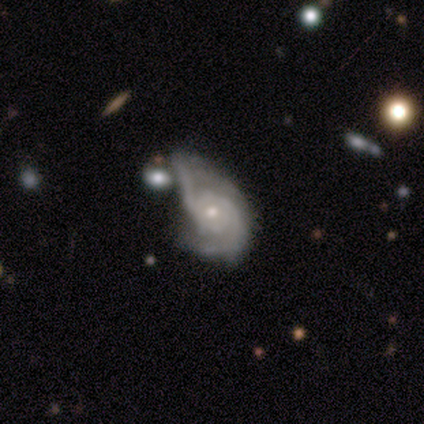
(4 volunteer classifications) A featured or disk galaxy (100%) with no bar (100%), 2 (50%, tied with can't tell) medium (50%) spiral arms (100%) and a moderate central bulge (75%). Merging: major disturbance (75%).